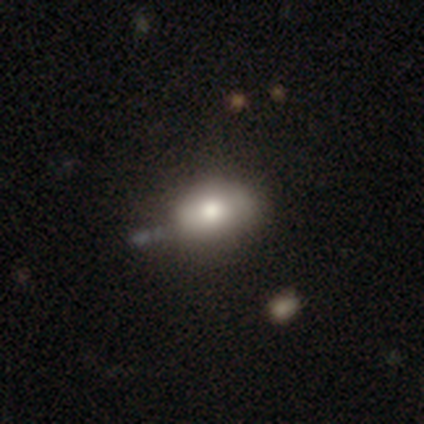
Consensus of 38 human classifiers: Overall: smooth (79%). How rounded: in between (80%). Merging: none (55%; minor disturbance 29%).